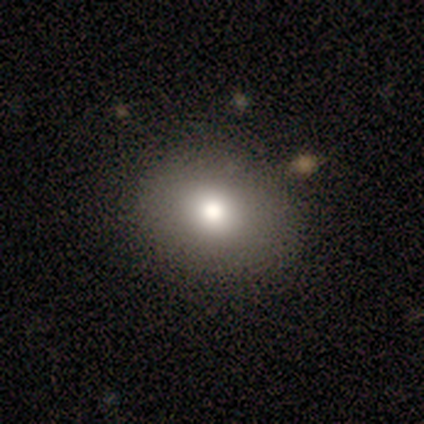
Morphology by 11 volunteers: Smooth or featured? smooth (73%)
How rounded? in between (75%)
Merging? none (80%)